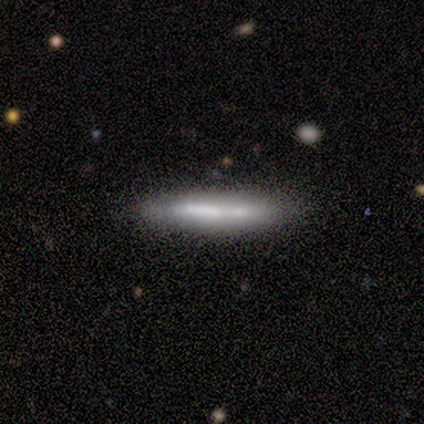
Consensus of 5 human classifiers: Smooth or featured?
  - featured or disk: 80% *
  - smooth: 20%
  - star or artifact: 0%
Edge-on disk?
  - yes: 100% *
  - no: 0%
Edge-on bulge?
  - none: 100% *
  - boxy: 0%
  - rounded: 0%
Merging?
  - none: 80% *
  - minor disturbance: 20%
  - major disturbance: 0%
  - merger: 0%